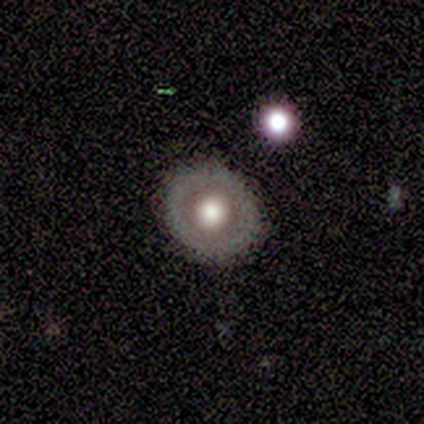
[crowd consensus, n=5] Morphology: type=smooth (40%, tied with star or artifact); roundness=round (100%); merging=none (100%).